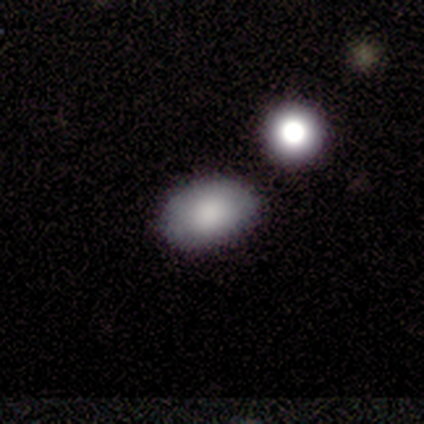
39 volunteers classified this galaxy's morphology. Q: Smooth or featured?
A: smooth (82%); runner-up: featured or disk (10%)
Q: How rounded?
A: in between (84%); runner-up: round (16%)
Q: Merging?
A: none (78%); runner-up: merger (11%)